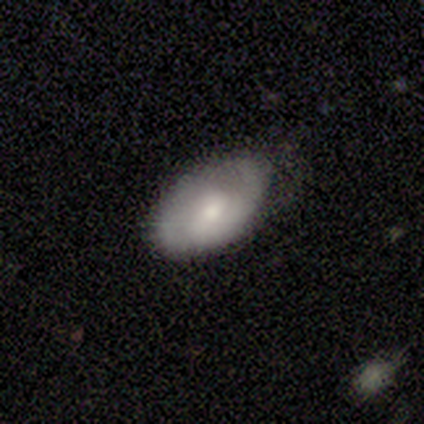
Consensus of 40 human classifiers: A featured or disk galaxy (45%) with no bar (56%), 2 (58%) tight (50%) spiral arms (75%) and a small central bulge (56%).

Vote fractions:
- Smooth or featured? featured or disk: 45% / smooth: 42% / star or artifact: 12%
- Edge-on disk? no: 89% / yes: 11%
- Bar? no: 56% / weak: 38% / strong: 6%
- Spiral arms? yes: 75% / no: 25%
- Spiral winding? tight: 50% / medium: 42% / loose: 8%
- Spiral arm count? 2: 58% / 1: 25% / can't tell: 17% / 3: 0% / 4: 0% / more than 4: 0%
- Bulge size? small: 56% / moderate: 44% / dominant: 0% / large: 0% / none: 0%
- Merging? none: 63% / minor disturbance: 31% / major disturbance: 6% / merger: 0%